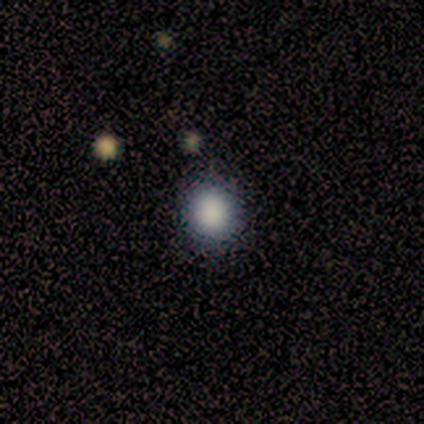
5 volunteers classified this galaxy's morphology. smooth 80%, star or artifact 20%, featured or disk 0%. Down the decision tree: how rounded — round (75%); merging — none (100%).